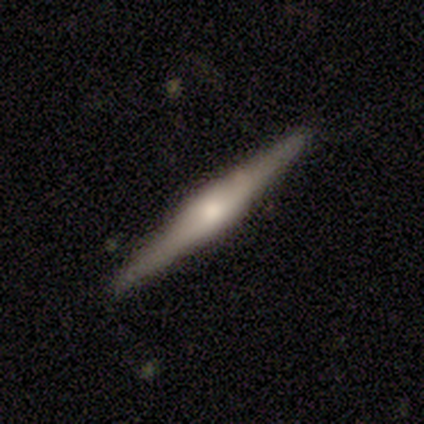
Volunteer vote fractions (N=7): Smooth or featured: featured or disk — 71% (smooth — 14%)
Edge-on disk: yes — 100%
Edge-on bulge: rounded — 100%
Merging: none — 100%